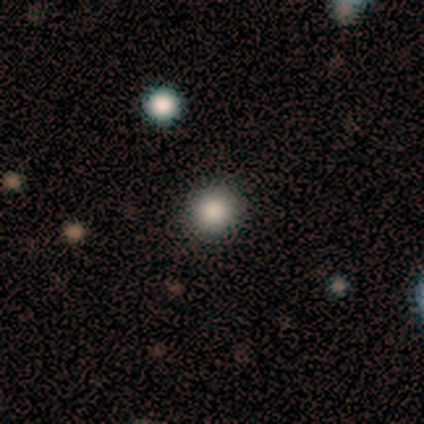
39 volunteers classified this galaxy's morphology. Q: Smooth or featured?
A: smooth (77%); runner-up: star or artifact (15%)
Q: How rounded?
A: round (97%); runner-up: in between (3%)
Q: Merging?
A: none (97%); runner-up: minor disturbance (3%)